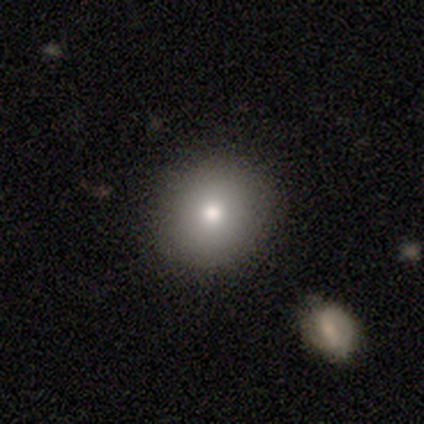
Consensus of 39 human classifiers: A smooth galaxy with no disk features (64%) that is round (80%). Merging: none (97%).